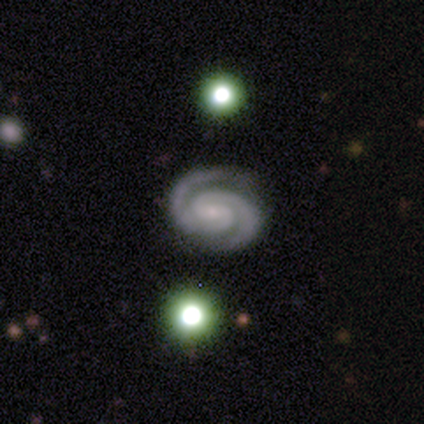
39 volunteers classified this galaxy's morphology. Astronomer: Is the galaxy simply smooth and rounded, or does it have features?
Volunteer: featured or disk — 92%.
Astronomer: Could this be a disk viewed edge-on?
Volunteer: no — 100%.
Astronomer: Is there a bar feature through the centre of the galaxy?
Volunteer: no — 58%.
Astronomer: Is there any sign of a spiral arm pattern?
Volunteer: yes — 100%.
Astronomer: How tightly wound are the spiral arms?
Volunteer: tight — 69%.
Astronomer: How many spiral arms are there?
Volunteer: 2 — 97%.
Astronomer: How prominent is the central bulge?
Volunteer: small — 72%.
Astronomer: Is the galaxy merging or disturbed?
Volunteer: none — 89%.